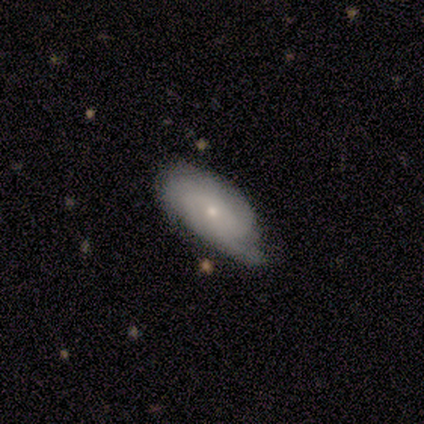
Smooth or featured? 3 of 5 (60%) said featured or disk. Edge-on disk? 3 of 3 (100%) said no. Bar? 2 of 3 (67%) said no. Spiral arms? 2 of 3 (67%) said yes. Spiral winding? 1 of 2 (50%, tied with medium) said tight. Spiral arm count? 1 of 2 (50%, tied with 3) said 2. Bulge size? 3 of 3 (100%) said small. Merging? 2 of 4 (50%, tied with minor disturbance) said none.